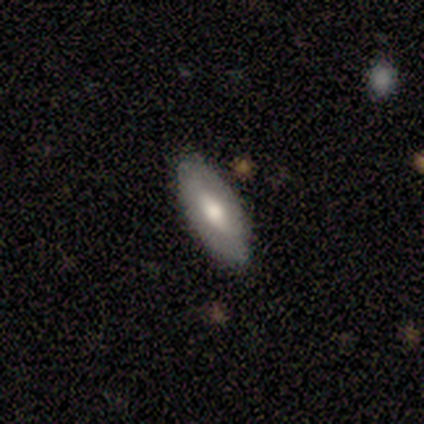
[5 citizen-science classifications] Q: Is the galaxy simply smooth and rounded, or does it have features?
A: smooth — 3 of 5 (60%).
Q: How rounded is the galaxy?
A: in between — 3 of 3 (100%).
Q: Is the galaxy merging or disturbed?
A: none — 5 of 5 (100%).